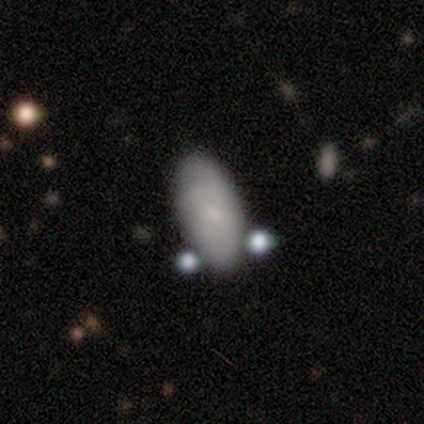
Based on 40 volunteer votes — This is likely a smooth galaxy (78%). How rounded: clearly in between (90%). Merging: likely none (79%).